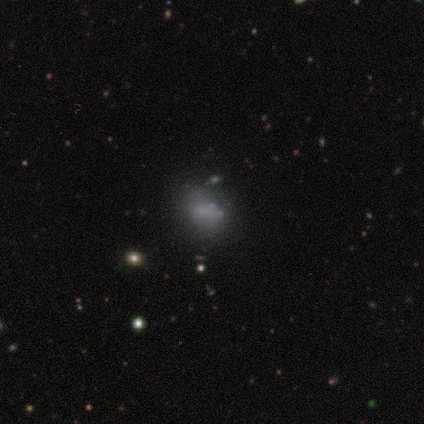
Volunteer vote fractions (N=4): Smooth or featured: smooth — 75% (featured or disk — 25%)
How rounded: round — 67% (in between — 33%)
Merging: none — 100%